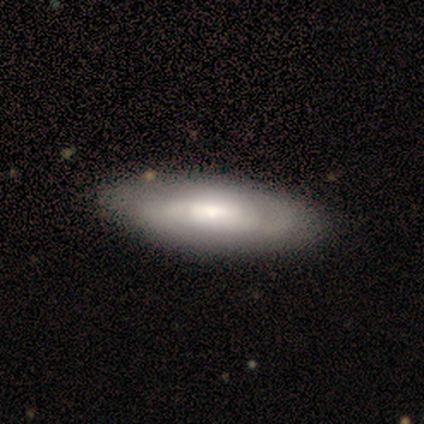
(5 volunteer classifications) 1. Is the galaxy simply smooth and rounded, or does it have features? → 60% smooth, 40% featured or disk, 0% star or artifact.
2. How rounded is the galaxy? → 100% in between, 0% round, 0% cigar-shaped.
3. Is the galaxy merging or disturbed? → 100% none, 0% minor disturbance, 0% major disturbance, 0% merger.